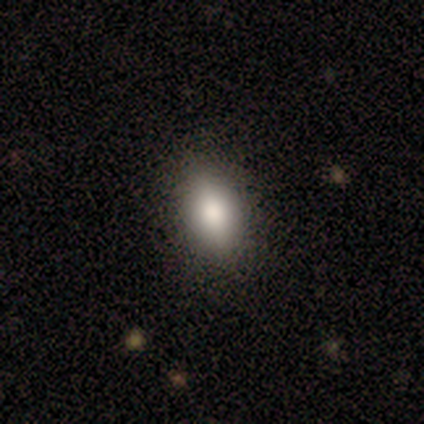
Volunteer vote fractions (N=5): Consensus on every question: smooth or featured — smooth (100%); how rounded — in between (100%); merging — none (100%).